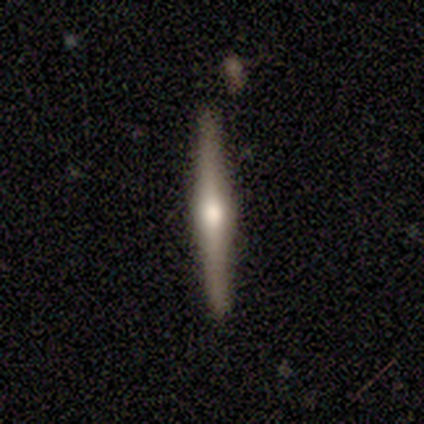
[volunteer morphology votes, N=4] This appears to be a smooth galaxy with no disk features (75%) that is cigar-shaped (100%). Merging: none (75%).